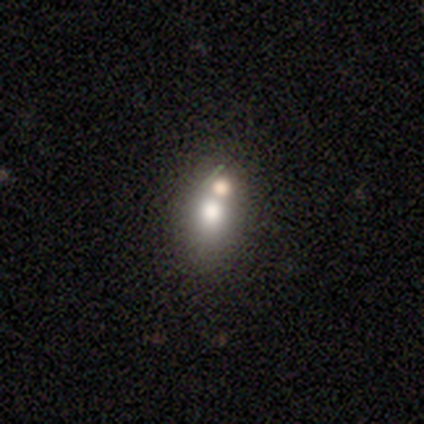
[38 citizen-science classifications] Q: Smooth or featured?
A: smooth (63%); runner-up: featured or disk (18%)
Q: How rounded?
A: in between (54%); runner-up: round (46%)
Q: Merging?
A: none (48%); runner-up: merger (45%)